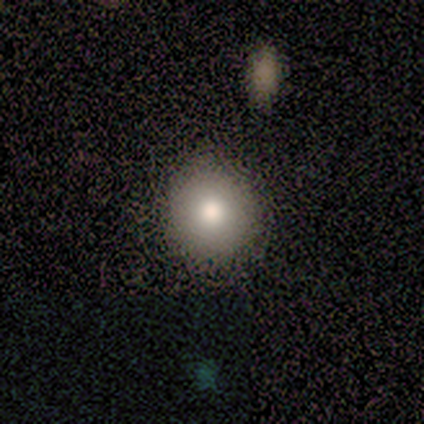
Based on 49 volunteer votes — smooth 86%, featured or disk 12%, star or artifact 2%. Down the decision tree: how rounded — round (86%); merging — none (92%).